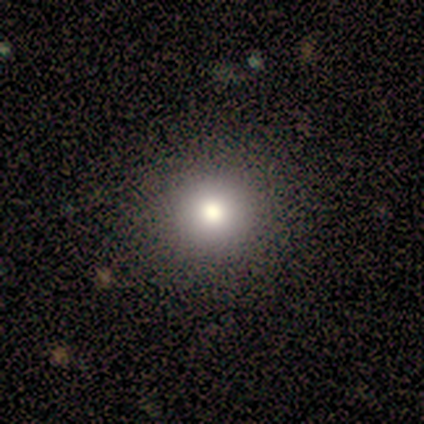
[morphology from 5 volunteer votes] smooth_or_featured: smooth (p=0.80) [alt: star or artifact p=0.20]
how_rounded: round (p=1.00)
merging: none (p=1.00)